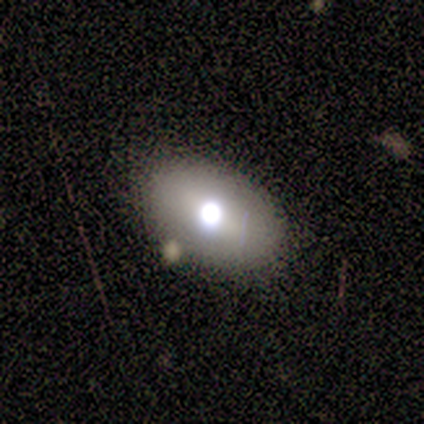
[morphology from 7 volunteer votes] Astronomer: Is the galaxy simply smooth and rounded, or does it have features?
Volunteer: smooth — 71%.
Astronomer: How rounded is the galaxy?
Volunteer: in between — 60% (runner-up: round, 40%).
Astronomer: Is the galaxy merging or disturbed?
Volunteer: none — 57% (runner-up: minor disturbance, 43%).